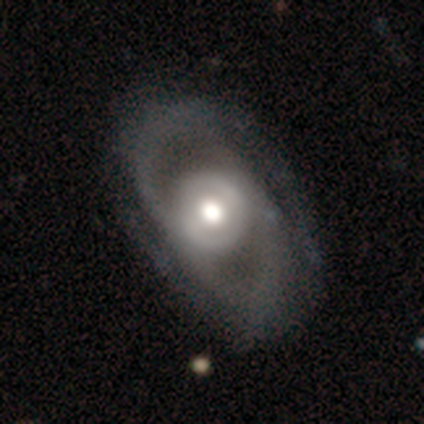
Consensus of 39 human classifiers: Morphology: type=featured or disk (77%); edge-on=no (97%); bar=no (62%); spiral arms=yes (59%); winding=medium (41%, tied with loose); arm count=2 (88%); bulge=moderate (48%); merging=none (56%).